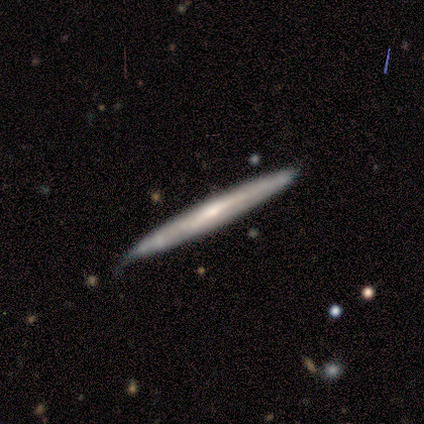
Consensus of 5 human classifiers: Smooth or featured: smooth — 80% (featured or disk — 20%)
How rounded: cigar-shaped — 100%
Merging: none — 80% (minor disturbance — 20%)